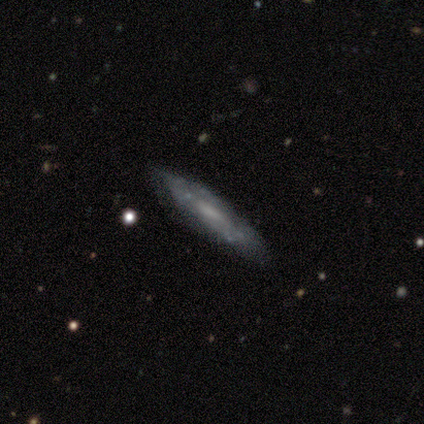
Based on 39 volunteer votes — Q: Smooth or featured?
A: featured or disk (62%); runner-up: smooth (23%)
Q: Edge-on disk?
A: no (67%); runner-up: yes (33%)
Q: Bar?
A: no (69%); runner-up: weak (25%)
Q: Spiral arms?
A: yes (56%); runner-up: no (44%)
Q: Spiral winding?
A: tight (44%); runner-up: medium (33%)
Q: Spiral arm count?
A: can't tell (78%); runner-up: 2 (22%)
Q: Bulge size?
A: none (38%); runner-up: moderate (31%)
Q: Merging?
A: none (67%); runner-up: minor disturbance (27%)